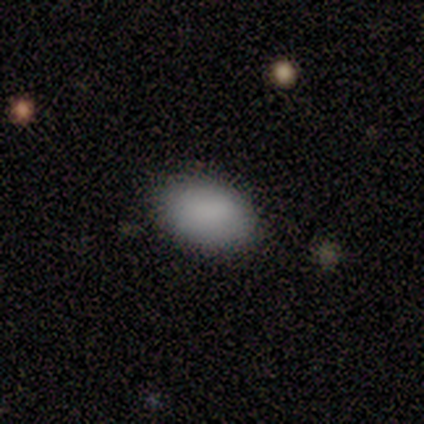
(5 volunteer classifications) smooth_or_featured: smooth (p=1.00)
how_rounded: in between (p=1.00)
merging: none (p=1.00)